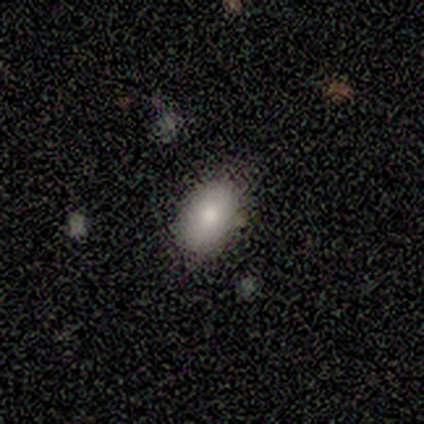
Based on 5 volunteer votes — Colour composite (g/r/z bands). It shows a smooth galaxy with no disk features (80%) that is in between round and cigar-shaped (100%). Merging: none (60%).